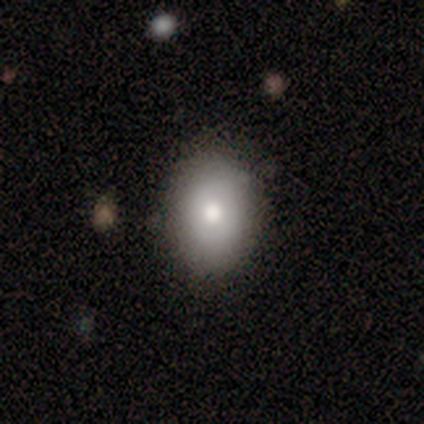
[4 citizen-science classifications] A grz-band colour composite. It shows a smooth galaxy with no disk features (75%) that is in between round and cigar-shaped (67%). Merging: none (100%).